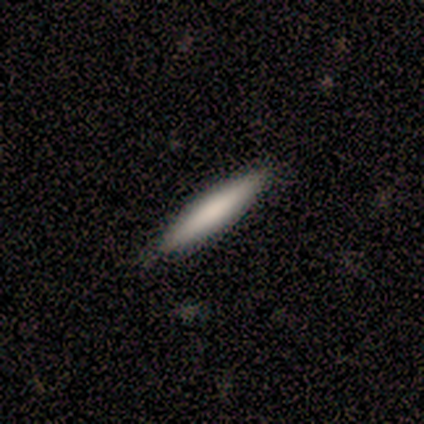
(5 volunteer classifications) A smooth galaxy with no disk features (80%) that is cigar-shaped (100%).

Vote fractions:
- Smooth or featured? smooth: 80% / featured or disk: 20% / star or artifact: 0%
- How rounded? cigar-shaped: 100% / round: 0% / in between: 0%
- Merging? none: 100% / minor disturbance: 0% / major disturbance: 0% / merger: 0%